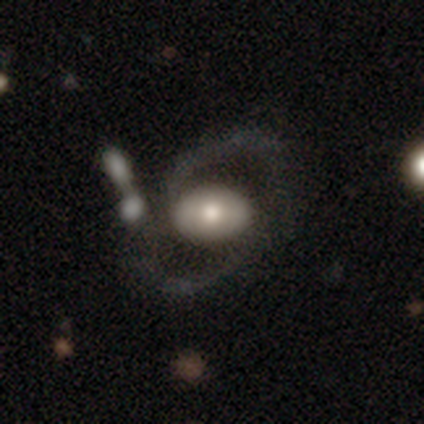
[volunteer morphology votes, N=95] This is possibly a featured or disk galaxy (59%). It is clearly not viewed edge-on (89%). Bar: likely no (66%). Spiral arm pattern: likely yes (64%). Spiral arm count: clearly 2 (94%). Spiral winding: possibly medium (53%). Central bulge: likely moderate (66%). Merging: possibly none (48%).